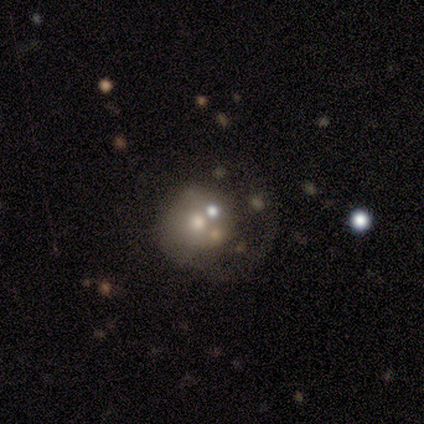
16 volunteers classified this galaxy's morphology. Smooth or featured? 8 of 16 (50%) said featured or disk. Edge-on disk? 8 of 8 (100%) said no. Bar? 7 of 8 (88%) said no. Spiral arms? 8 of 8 (100%) said no. Bulge size? 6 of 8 (75%) said moderate. Merging? 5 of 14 (36%, tied with major disturbance) said none.